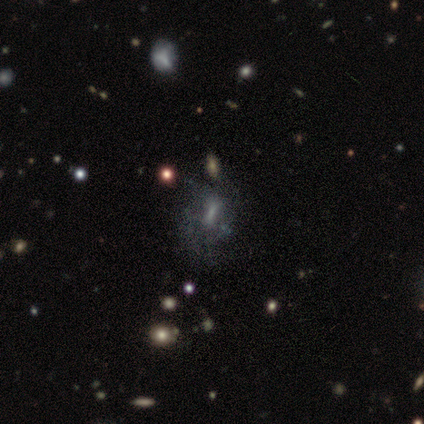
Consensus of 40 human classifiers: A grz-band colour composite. It shows a featured or disk galaxy (50%) with a weak bar (39%), no spiral arms (61%) and no central bulge (44%). Merging: none (27%).